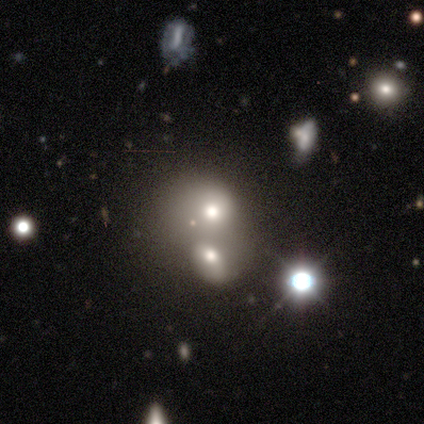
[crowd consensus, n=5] Smooth or featured: smooth — 60% (featured or disk — 40%)
How rounded: round — 67% (in between — 33%)
Merging: merger — 60% (none — 20%)